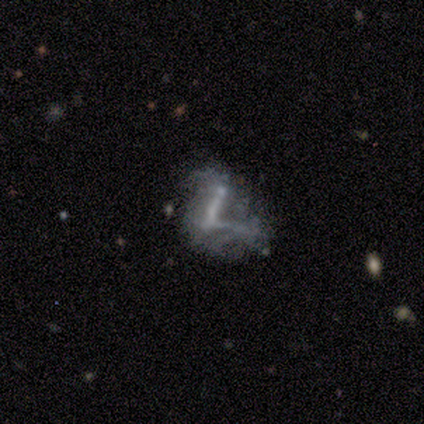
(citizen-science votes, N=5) Morphology: type=featured or disk (60%); edge-on=no (100%); bar=no (67%); spiral arms=no (100%); bulge=none (100%); merging=major disturbance (40%).